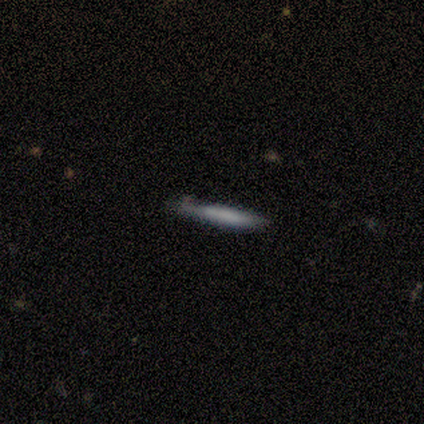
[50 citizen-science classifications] This is likely a smooth galaxy (60%). How rounded: clearly cigar-shaped (93%). Merging: likely none (74%).